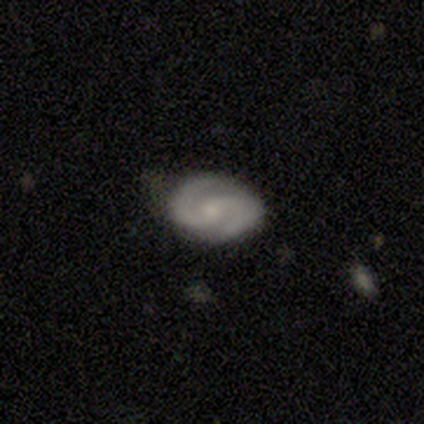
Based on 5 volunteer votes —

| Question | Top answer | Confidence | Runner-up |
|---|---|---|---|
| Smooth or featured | featured or disk | 80% | smooth (20%) |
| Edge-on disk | no | 100% | — |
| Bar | weak | 75% | no (25%) |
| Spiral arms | yes | 100% | — |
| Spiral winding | tight | 100% | — |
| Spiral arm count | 2 | 100% | — |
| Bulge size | small | 75% | moderate (25%) |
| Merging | none | 60% | minor disturbance (40%) |